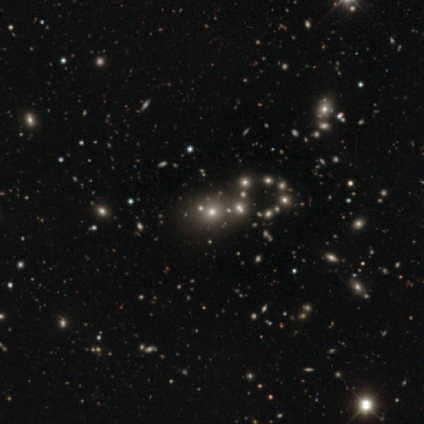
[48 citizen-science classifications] Morphology: type=star or artifact (56%).